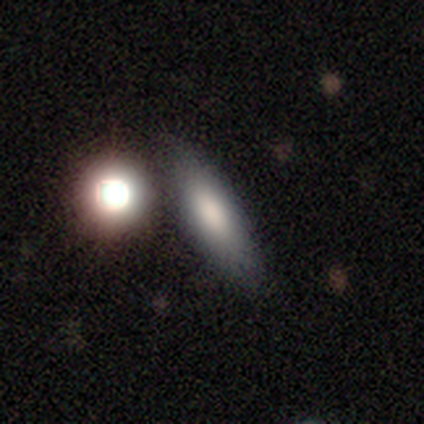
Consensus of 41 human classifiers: Smooth or featured?
  - smooth: 85% *
  - featured or disk: 12%
  - star or artifact: 2%
How rounded?
  - in between: 57% *
  - cigar-shaped: 43%
  - round: 0%
Merging?
  - none: 72% *
  - merger: 15%
  - minor disturbance: 12%
  - major disturbance: 0%